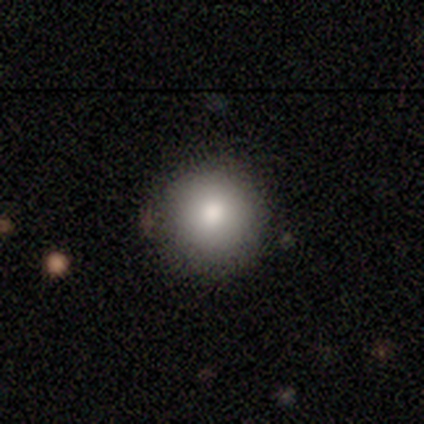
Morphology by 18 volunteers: type=smooth (83%); roundness=round (87%); merging=none (78%).